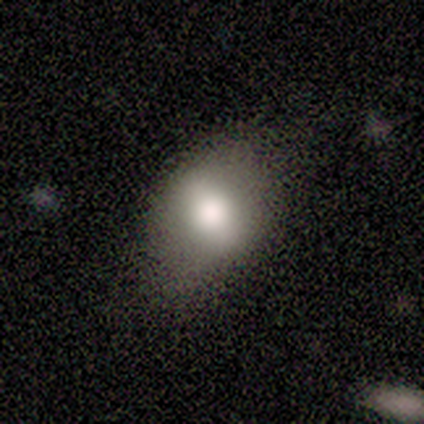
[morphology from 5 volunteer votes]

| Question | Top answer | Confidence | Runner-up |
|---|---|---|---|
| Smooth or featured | smooth | 80% | featured or disk (20%) |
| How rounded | in between | 75% | round (25%) |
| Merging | none | 80% | minor disturbance (20%) |